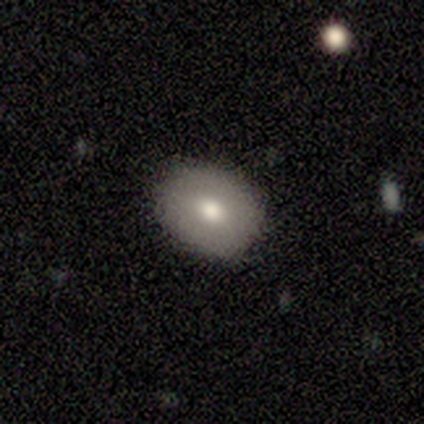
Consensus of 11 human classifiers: smooth_or_featured: smooth (p=0.73) [alt: featured or disk p=0.27]
how_rounded: round (p=0.62) [alt: in between p=0.38]
merging: none (p=0.91) [alt: minor disturbance p=0.09]